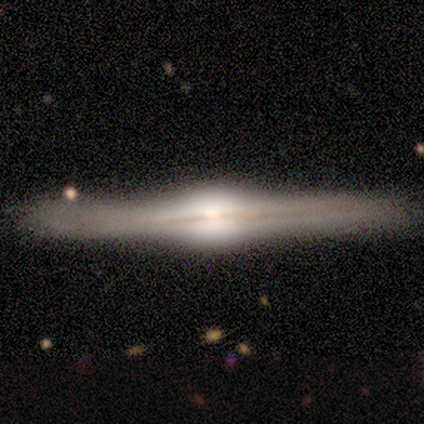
A featured or disk galaxy (96%) viewed edge-on (100%) with a rounded central bulge (94%). Merging: none (82%).